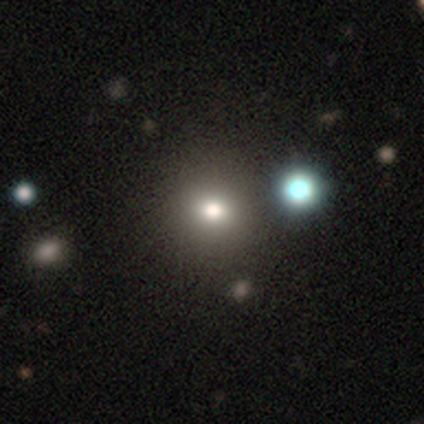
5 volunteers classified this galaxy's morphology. Smooth or featured: smooth — 60% (star or artifact — 40%)
How rounded: round — 100%
Merging: none — 100%